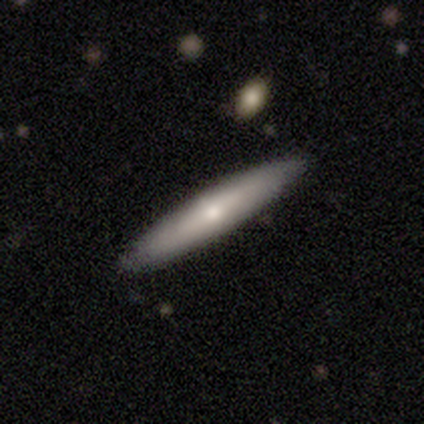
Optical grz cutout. It shows a smooth galaxy with no disk features (61%) that is cigar-shaped (88%). Merging: none (91%).